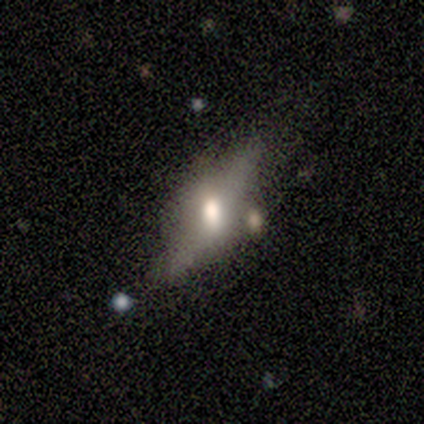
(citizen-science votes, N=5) A featured or disk galaxy (80%) viewed edge-on (75%) with a rounded central bulge (100%).

Vote fractions:
- Smooth or featured? featured or disk: 80% / smooth: 20% / star or artifact: 0%
- Edge-on disk? yes: 75% / no: 25%
- Edge-on bulge? rounded: 100% / boxy: 0% / none: 0%
- Merging? none: 100% / minor disturbance: 0% / major disturbance: 0% / merger: 0%